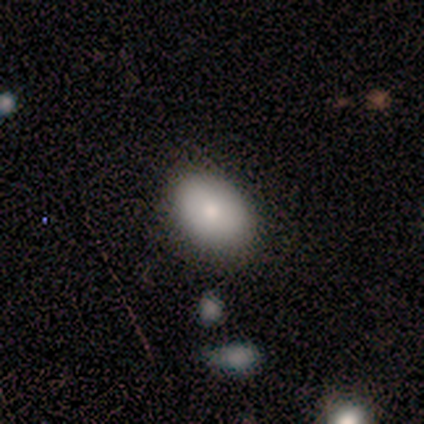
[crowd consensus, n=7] Smooth or featured?
  - smooth: 57% *
  - featured or disk: 43%
  - star or artifact: 0%
How rounded?
  - in between: 100% *
  - round: 0%
  - cigar-shaped: 0%
Merging?
  - none: 86% *
  - minor disturbance: 14%
  - major disturbance: 0%
  - merger: 0%